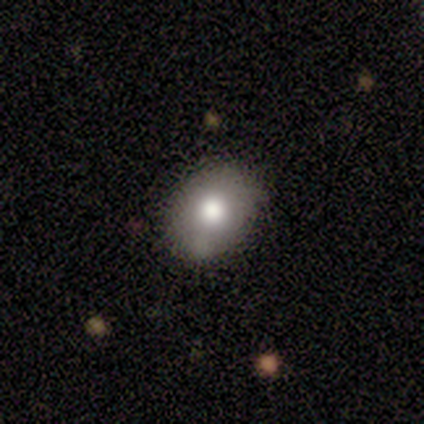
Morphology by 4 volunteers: Smooth or featured? smooth (75%)
How rounded? in between (100%)
Merging? none (100%)